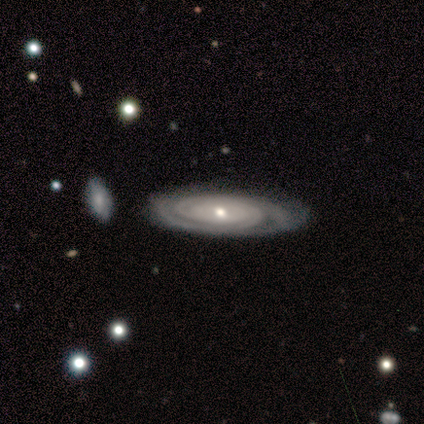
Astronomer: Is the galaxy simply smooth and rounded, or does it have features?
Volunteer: featured or disk — 100%.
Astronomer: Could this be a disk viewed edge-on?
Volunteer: no — 100%.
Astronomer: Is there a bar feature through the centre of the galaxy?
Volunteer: no — 80%.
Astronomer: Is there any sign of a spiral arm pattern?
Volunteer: yes — 80%.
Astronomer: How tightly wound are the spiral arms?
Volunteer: tight — 100%.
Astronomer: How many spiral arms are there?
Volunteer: can't tell — 100%.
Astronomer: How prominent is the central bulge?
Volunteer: moderate — 60% (runner-up: small, 40%).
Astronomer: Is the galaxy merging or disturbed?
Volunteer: none — 60% (runner-up: minor disturbance, 40%).